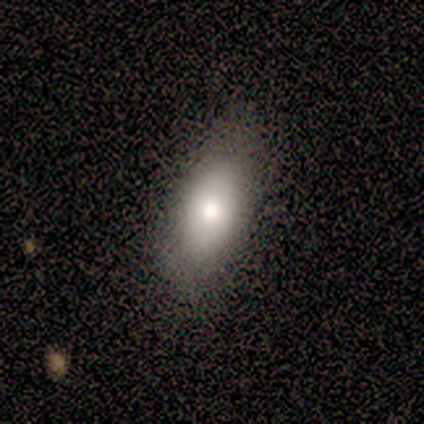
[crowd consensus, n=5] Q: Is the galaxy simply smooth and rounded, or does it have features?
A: smooth — 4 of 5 (80%).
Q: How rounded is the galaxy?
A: in between — 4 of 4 (100%).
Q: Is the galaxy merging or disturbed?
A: none — 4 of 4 (100%).